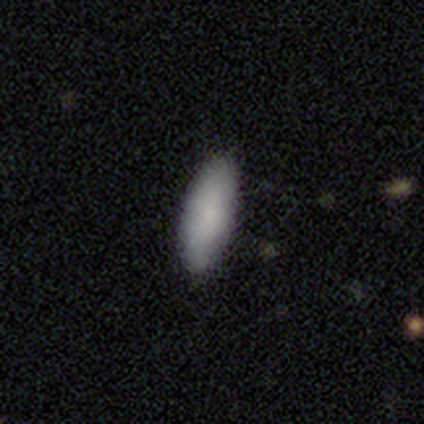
Q: Smooth or featured?
A: smooth (100%)
Q: How rounded?
A: cigar-shaped (60%); runner-up: in between (40%)
Q: Merging?
A: none (100%)